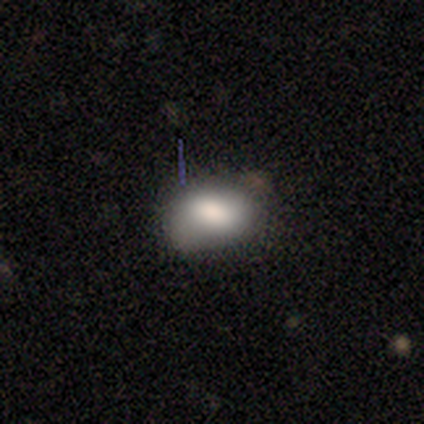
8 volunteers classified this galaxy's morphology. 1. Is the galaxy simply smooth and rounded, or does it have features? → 62% smooth, 25% featured or disk, 12% star or artifact.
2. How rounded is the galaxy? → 60% in between, 40% round, 0% cigar-shaped.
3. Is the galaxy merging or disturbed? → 57% none, 29% minor disturbance, 14% major disturbance, 0% merger.